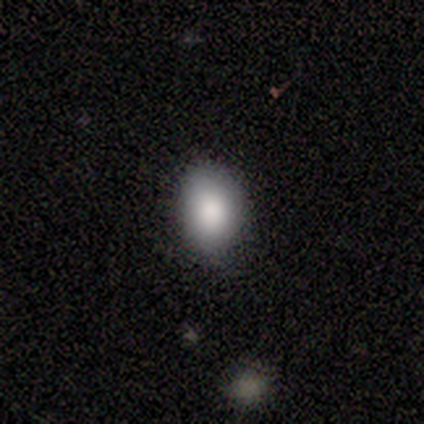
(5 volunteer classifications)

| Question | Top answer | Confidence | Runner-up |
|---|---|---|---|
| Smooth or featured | smooth | 100% | — |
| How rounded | in between | 60% | round (20%) |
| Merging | none | 100% | — |